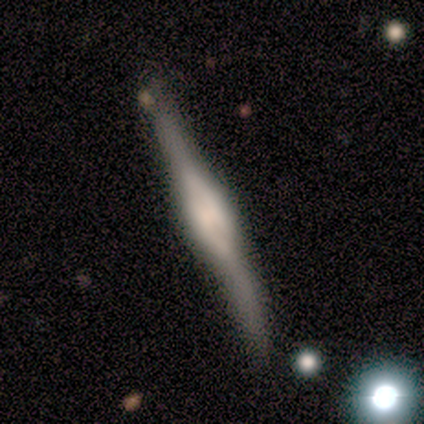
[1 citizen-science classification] Smooth or featured: smooth — 100%
How rounded: cigar-shaped — 100%
Merging: none — 100%